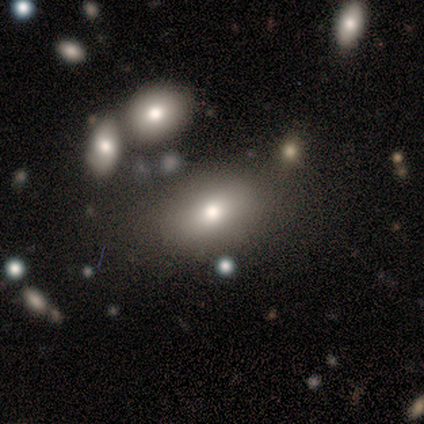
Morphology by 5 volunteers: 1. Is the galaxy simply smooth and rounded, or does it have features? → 80% smooth, 20% star or artifact, 0% featured or disk.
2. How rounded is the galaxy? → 100% in between, 0% round, 0% cigar-shaped.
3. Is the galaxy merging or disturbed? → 75% none, 25% minor disturbance, 0% major disturbance, 0% merger.